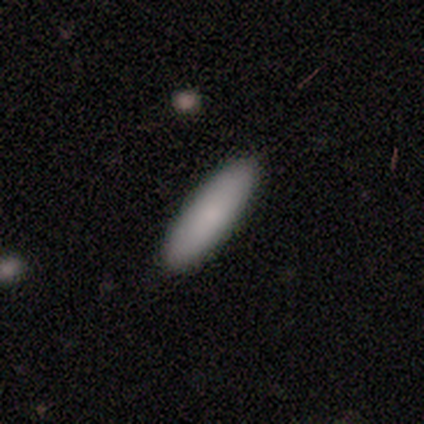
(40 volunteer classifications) A smooth galaxy with no disk features (82%) that is cigar-shaped (64%). Merging: none (71%).